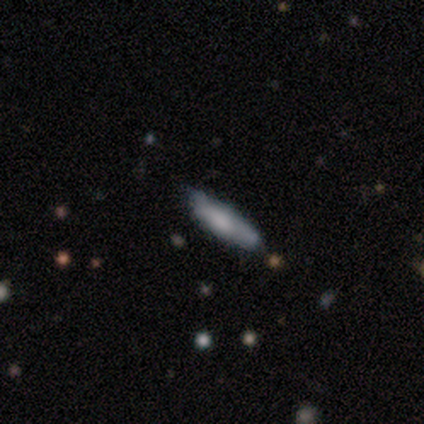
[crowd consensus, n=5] Smooth or featured? smooth (40%, tied with featured or disk)
How rounded? in between (50%, tied with cigar-shaped)
Merging? none (100%)